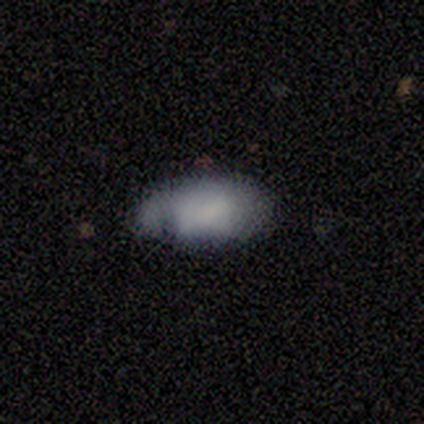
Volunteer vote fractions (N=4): Morphology: type=smooth (50%); roundness=round (50%, tied with in between); merging=none (33%, tied with minor disturbance and merger).